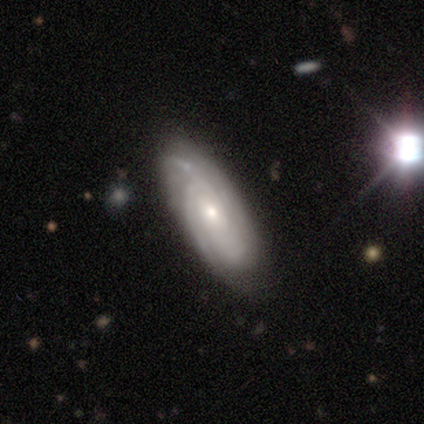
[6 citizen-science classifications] Morphology: type=featured or disk (83%); edge-on=no (100%); bar=no (100%); spiral arms=yes (100%); winding=tight (60%); arm count=4 (60%); bulge=small (60%); merging=none (100%).